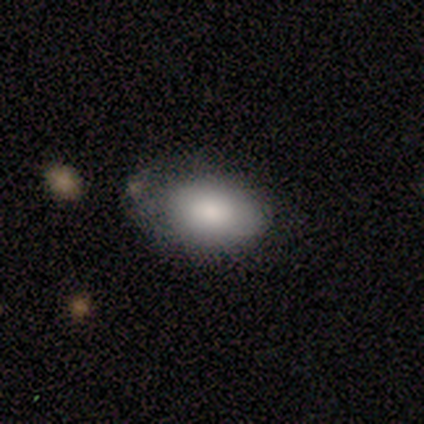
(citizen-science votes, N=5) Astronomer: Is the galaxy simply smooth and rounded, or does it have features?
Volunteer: smooth — 80%.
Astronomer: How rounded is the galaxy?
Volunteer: in between — 100%.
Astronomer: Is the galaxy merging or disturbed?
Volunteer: none — 50%.